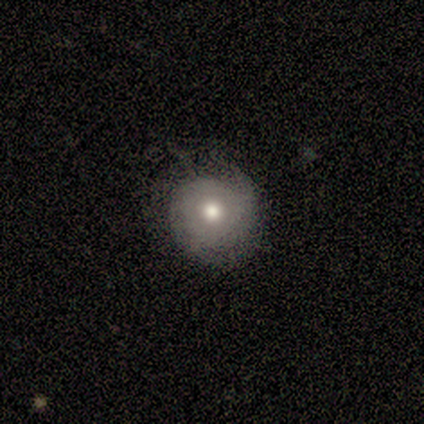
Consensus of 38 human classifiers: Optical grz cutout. It shows a smooth galaxy with no disk features (47%, tied with featured or disk) that is round (83%). Merging: none (64%).